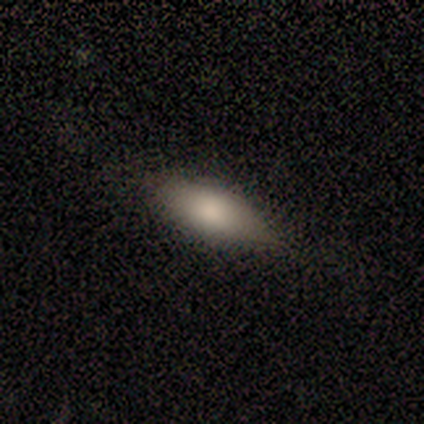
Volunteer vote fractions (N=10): Q: Smooth or featured?
A: smooth (80%); runner-up: featured or disk (20%)
Q: How rounded?
A: in between (100%)
Q: Merging?
A: none (60%); runner-up: minor disturbance (40%)